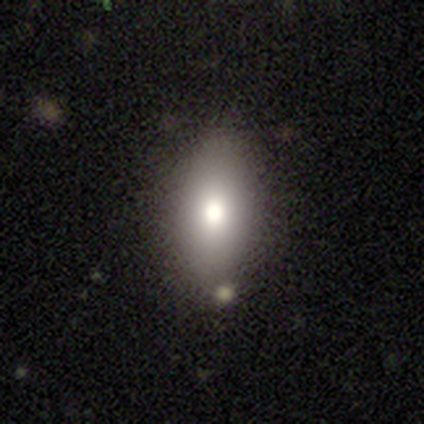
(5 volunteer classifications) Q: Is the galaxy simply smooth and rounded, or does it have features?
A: smooth — 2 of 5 (40%, tied with star or artifact).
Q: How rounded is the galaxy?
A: in between — 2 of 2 (100%).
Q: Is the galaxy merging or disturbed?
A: none — 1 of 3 (33%, tied with minor disturbance and merger).